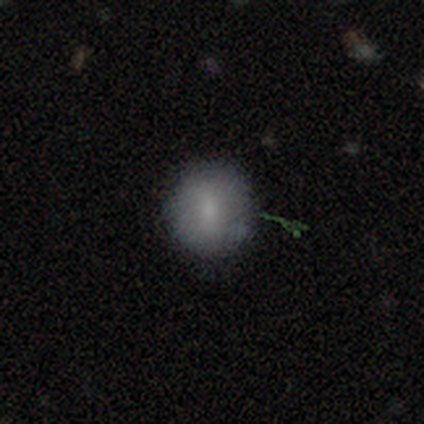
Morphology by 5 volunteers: smooth-or-featured: smooth: 60% | featured or disk: 40% | star or artifact: 0%
  how-rounded: round: 67% | in between: 33% | cigar-shaped: 0%
  merging: none: 80% | minor disturbance: 20% | major disturbance: 0% | merger: 0%